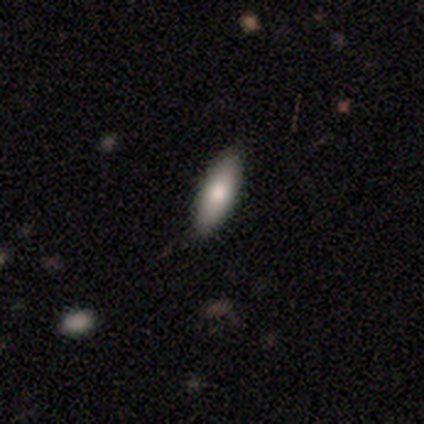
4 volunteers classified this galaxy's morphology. Smooth or featured: smooth — 75% (featured or disk — 25%)
How rounded: in between — 67% (cigar-shaped — 33%)
Merging: none — 100%